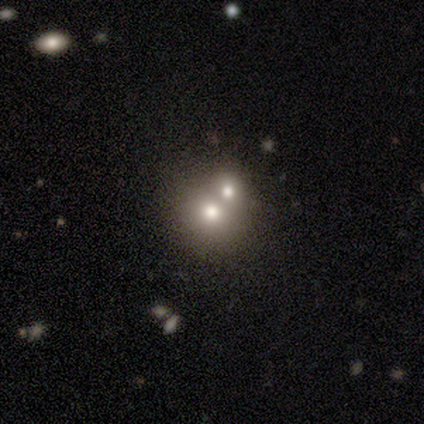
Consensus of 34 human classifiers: Smooth or featured? smooth (71%)
How rounded? round (88%)
Merging? merger (82%)